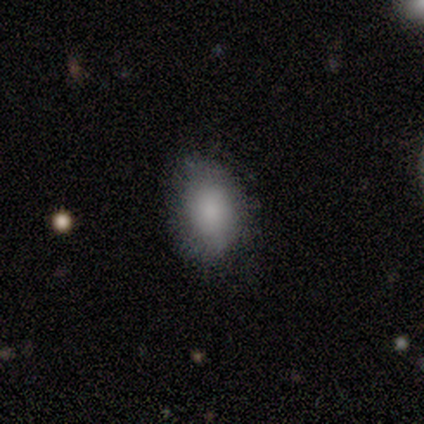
This is clearly a smooth galaxy (89%). How rounded: likely in between (75%). Merging: likely none (78%).